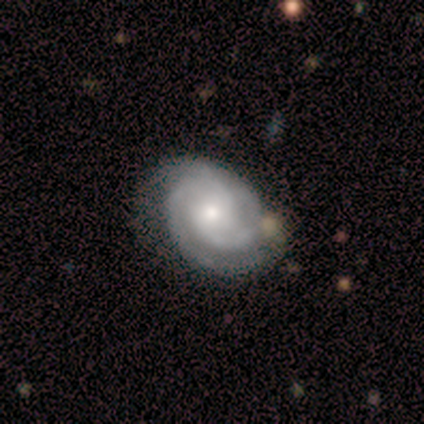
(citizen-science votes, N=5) Smooth or featured?
  - featured or disk: 100% *
  - smooth: 0%
  - star or artifact: 0%
Edge-on disk?
  - no: 100% *
  - yes: 0%
Bar?
  - no: 60% *
  - weak: 40%
  - strong: 0%
Spiral arms?
  - yes: 100% *
  - no: 0%
Spiral winding?
  - tight: 80% *
  - medium: 20%
  - loose: 0%
Spiral arm count?
  - 2: 80% *
  - can't tell: 20%
  - 1: 0%
  - 3: 0%
  - 4: 0%
  - more than 4: 0%
Bulge size?
  - moderate: 100% *
  - dominant: 0%
  - large: 0%
  - small: 0%
  - none: 0%
Merging?
  - none: 100% *
  - minor disturbance: 0%
  - major disturbance: 0%
  - merger: 0%